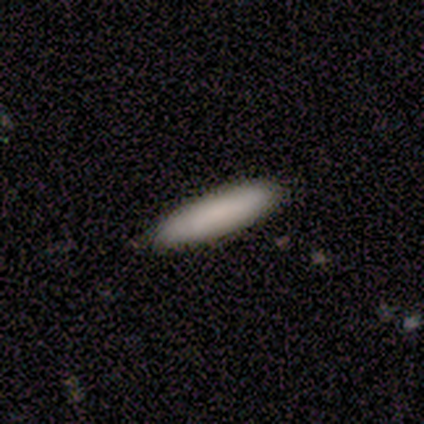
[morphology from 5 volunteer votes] Q: Smooth or featured?
A: smooth (100%)
Q: How rounded?
A: cigar-shaped (60%); runner-up: in between (40%)
Q: Merging?
A: none (100%)